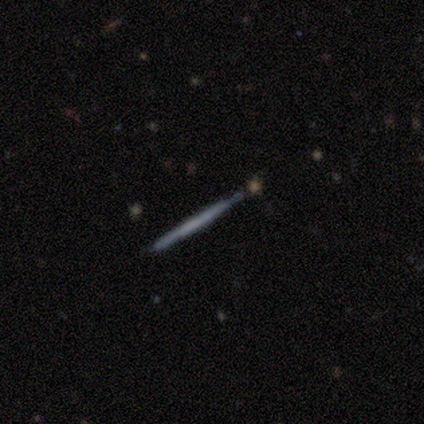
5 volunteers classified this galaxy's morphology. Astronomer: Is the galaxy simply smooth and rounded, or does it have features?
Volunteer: smooth — 60% (runner-up: featured or disk, 40%).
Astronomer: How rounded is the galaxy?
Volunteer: cigar-shaped — 100%.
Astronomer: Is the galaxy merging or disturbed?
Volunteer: none — 80%.